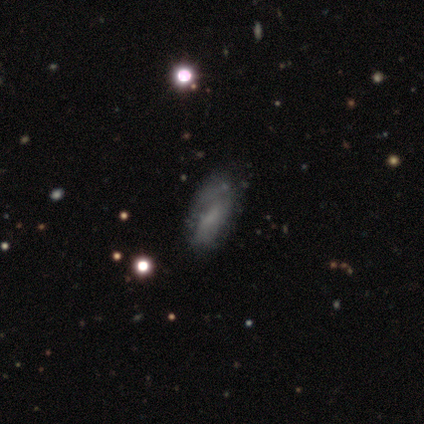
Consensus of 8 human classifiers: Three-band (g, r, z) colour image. It shows a featured or disk galaxy (50%) with no bar (100%), no spiral arms (67%) and no central bulge (100%). Merging: none (67%).